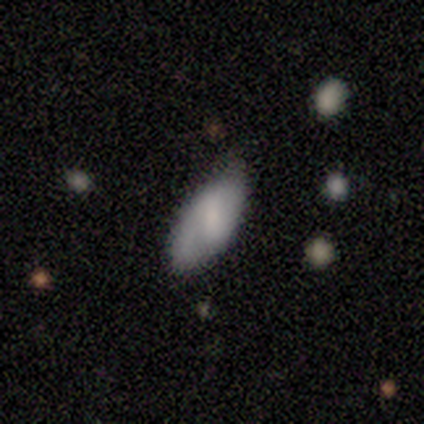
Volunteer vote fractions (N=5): smooth_or_featured: smooth (p=0.60) [alt: featured or disk p=0.40]
how_rounded: in between (p=1.00)
merging: none (p=0.80) [alt: minor disturbance p=0.20]